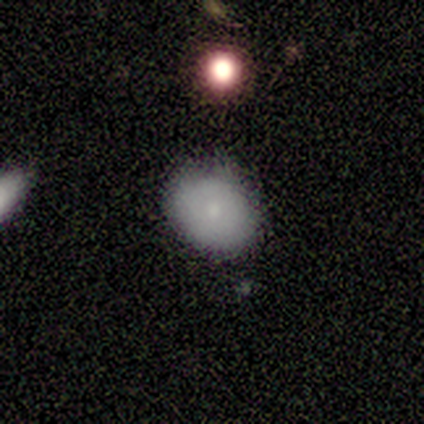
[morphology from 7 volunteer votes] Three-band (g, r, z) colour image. It shows a smooth galaxy with no disk features (86%) that is round (67%). Merging: none (100%).